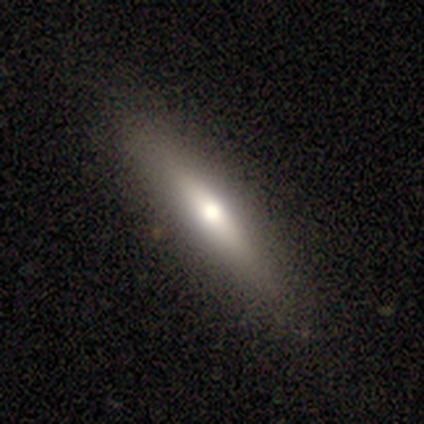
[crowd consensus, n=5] smooth-or-featured: featured or disk: 60% | smooth: 40% | star or artifact: 0%
  disk-edge-on: yes: 67% | no: 33%
    edge-on-bulge: boxy: 50% (tied) | rounded: 50% (tied) | none: 0%
  merging: none: 100% | minor disturbance: 0% | major disturbance: 0% | merger: 0%